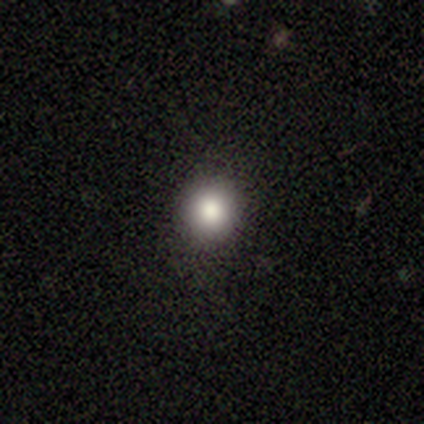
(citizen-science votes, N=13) Smooth or featured: smooth — 77% (star or artifact — 23%)
How rounded: round — 90% (in between — 10%)
Merging: none — 100%